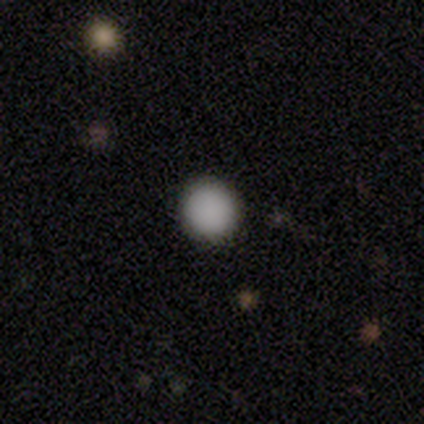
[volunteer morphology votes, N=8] Smooth or featured?
  - smooth: 100% *
  - featured or disk: 0%
  - star or artifact: 0%
How rounded?
  - round: 100% *
  - in between: 0%
  - cigar-shaped: 0%
Merging?
  - none: 100% *
  - minor disturbance: 0%
  - major disturbance: 0%
  - merger: 0%